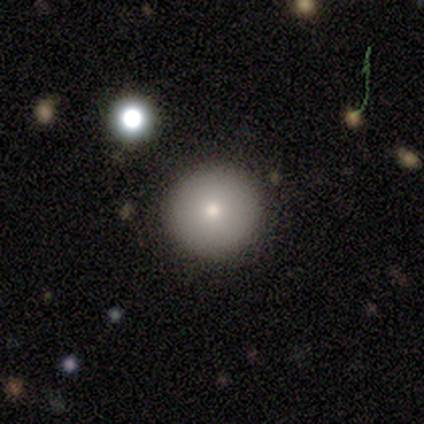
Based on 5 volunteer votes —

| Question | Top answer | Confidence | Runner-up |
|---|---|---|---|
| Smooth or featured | smooth | 40% | tied: featured or disk (40%) |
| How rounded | round | 100% | — |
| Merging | none | 100% | — |